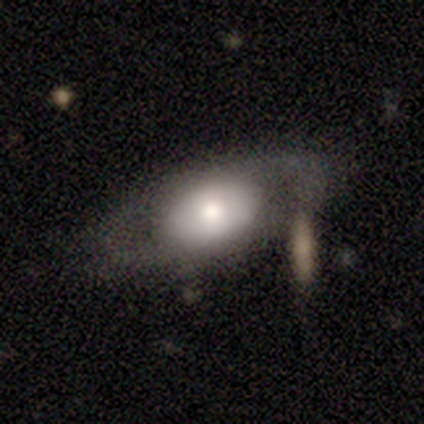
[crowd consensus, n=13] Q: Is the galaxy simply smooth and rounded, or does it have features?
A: featured or disk — 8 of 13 (62%).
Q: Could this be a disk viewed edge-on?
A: no — 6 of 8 (75%).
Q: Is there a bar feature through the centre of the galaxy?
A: no — 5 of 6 (83%).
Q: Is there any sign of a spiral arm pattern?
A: no — 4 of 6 (67%).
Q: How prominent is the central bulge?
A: large — 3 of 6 (50%, tied with moderate).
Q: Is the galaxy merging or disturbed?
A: none — 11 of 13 (85%).